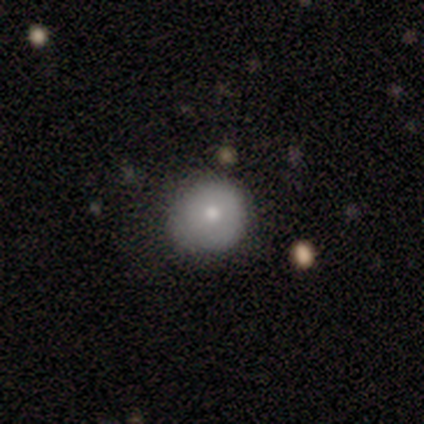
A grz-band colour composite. It shows a smooth galaxy with no disk features (50%, tied with featured or disk) that is round (100%). Merging: none (75%).